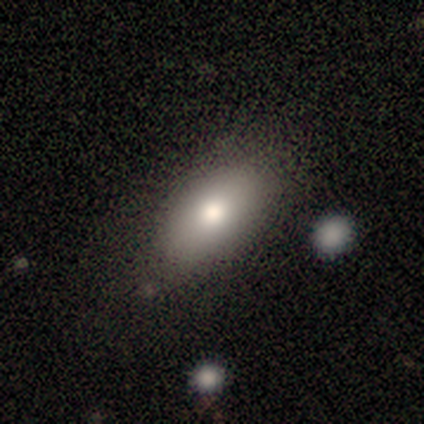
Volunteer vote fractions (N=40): Overall: smooth (75%). How rounded: in between (83%). Merging: none (85%).